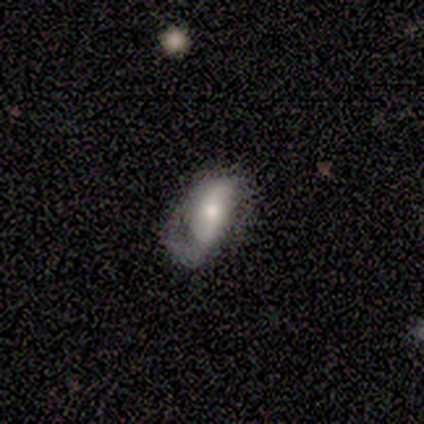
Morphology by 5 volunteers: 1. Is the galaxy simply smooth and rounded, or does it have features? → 60% featured or disk, 40% smooth, 0% star or artifact.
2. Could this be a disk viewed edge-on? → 100% no, 0% yes.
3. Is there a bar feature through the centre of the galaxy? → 33% strong (tied), 33% weak (tied), 33% no (tied).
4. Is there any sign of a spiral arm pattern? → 67% yes, 33% no.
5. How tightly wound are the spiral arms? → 50% medium (tied), 50% loose (tied), 0% tight.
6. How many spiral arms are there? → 50% 1 (tied), 50% 2 (tied), 0% 3, 0% 4, 0% more than 4, 0% can't tell.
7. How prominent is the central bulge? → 67% moderate, 33% large, 0% dominant, 0% small, 0% none.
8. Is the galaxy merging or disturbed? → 60% none, 20% minor disturbance, 20% major disturbance, 0% merger.